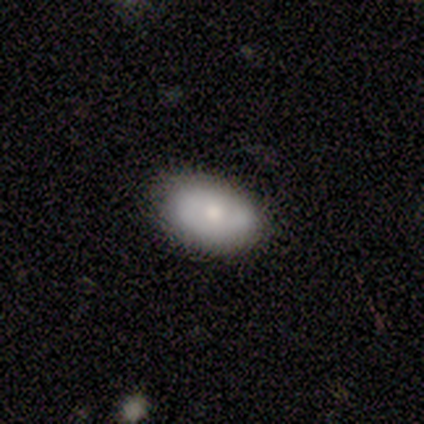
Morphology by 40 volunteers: smooth_or_featured: smooth (p=0.62) [alt: featured or disk p=0.33]
how_rounded: in between (p=0.84) [alt: round p=0.16]
merging: none (p=0.76) [alt: minor disturbance p=0.21]